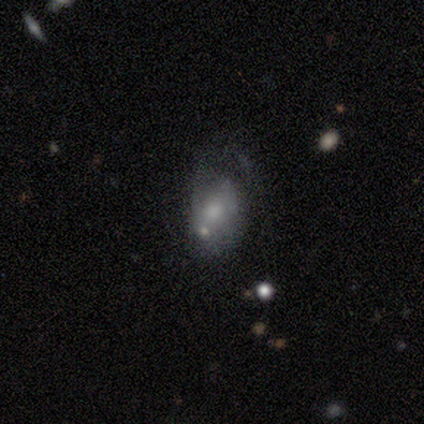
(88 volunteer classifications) This appears to be a featured or disk galaxy (42%) with no bar (73%), no spiral arms (54%) and a moderate central bulge (41%). Merging: major disturbance (33%).